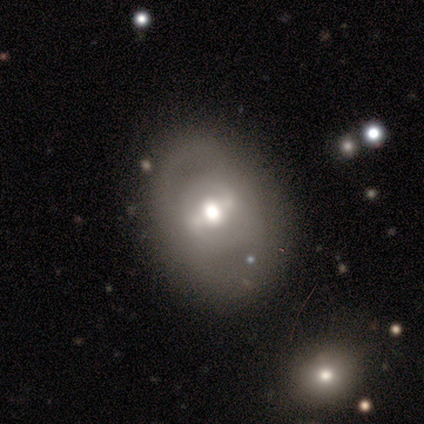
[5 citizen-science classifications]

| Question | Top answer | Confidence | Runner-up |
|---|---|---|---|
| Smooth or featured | featured or disk | 60% | smooth (20%) |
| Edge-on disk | no | 100% | — |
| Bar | strong | 67% | weak (33%) |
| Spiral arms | yes | 67% | no (33%) |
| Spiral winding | tight | 50% | tied: medium (50%) |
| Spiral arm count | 2 | 100% | — |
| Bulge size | moderate | 100% | — |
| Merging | none | 75% | minor disturbance (25%) |